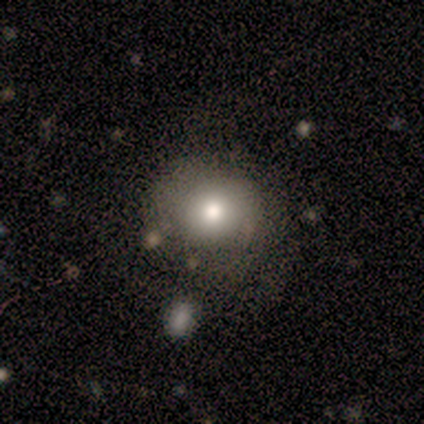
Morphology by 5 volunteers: This is likely a smooth galaxy (60%). How rounded: likely round (67%). Merging: marginally minor disturbance (40%, tied with major disturbance).